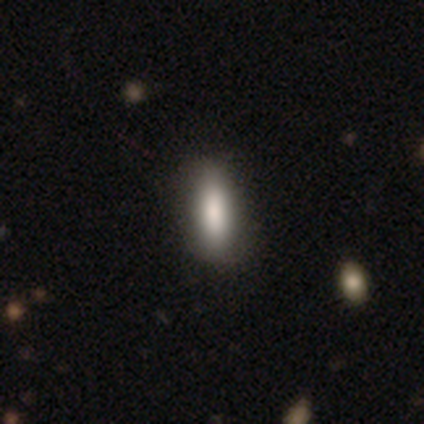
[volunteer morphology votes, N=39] type=smooth (77%); roundness=in between (70%); merging=none (50%).